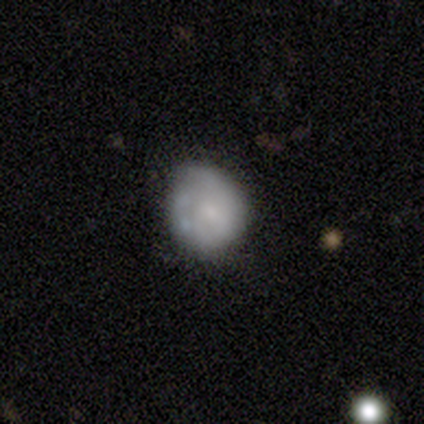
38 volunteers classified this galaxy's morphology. featured or disk 61%, smooth 37%, star or artifact 3%. Down the decision tree: edge-on disk — no (100%); bar — no (91%); spiral arms — no (70%); bulge size — small (65%); merging — none (65%).